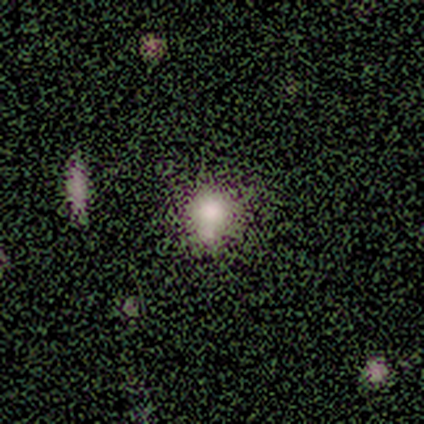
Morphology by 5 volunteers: Overall: smooth (60%; star or artifact 40%). How rounded: in between (67%; round 33%). Merging: none (100%).